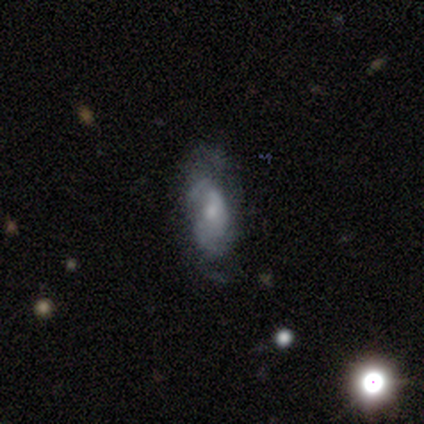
Smooth or featured: featured or disk — 100%
Edge-on disk: no — 100%
Bar: no — 100%
Spiral arms: yes — 75% (no — 25%)
Spiral winding: loose — 67% (medium — 33%)
Spiral arm count: can't tell — 67% (2 — 33%)
Bulge size: small — 50% (moderate — 25%)
Merging: minor disturbance — 75% (none — 25%)